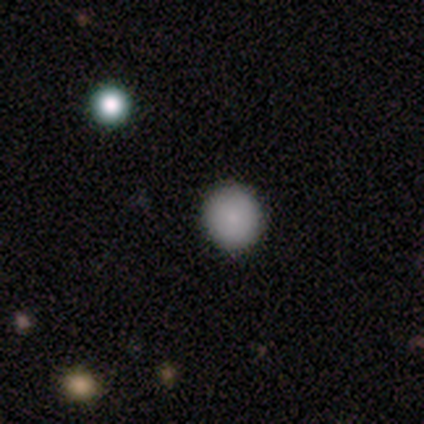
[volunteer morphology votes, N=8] Overall: smooth (75%). How rounded: round (83%). Merging: none (100%).